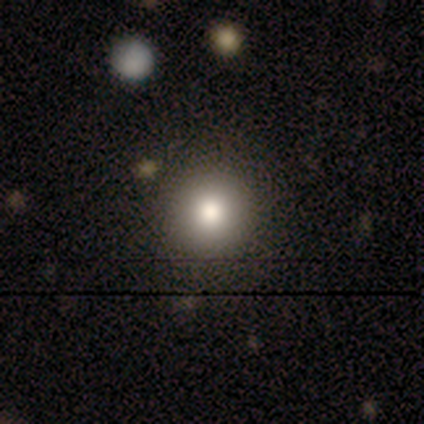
smooth 100%, featured or disk 0%, star or artifact 0%. Down the decision tree: how rounded — round (100%); merging — none (100%).